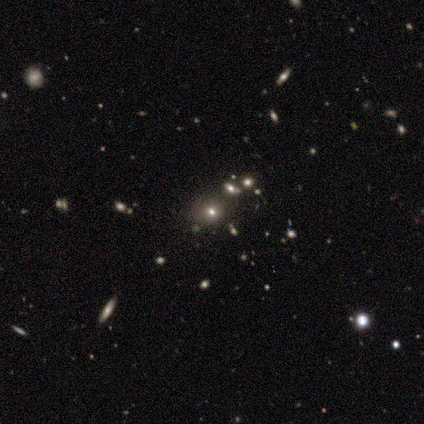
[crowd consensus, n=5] Smooth or featured? 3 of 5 (60%) said star or artifact.